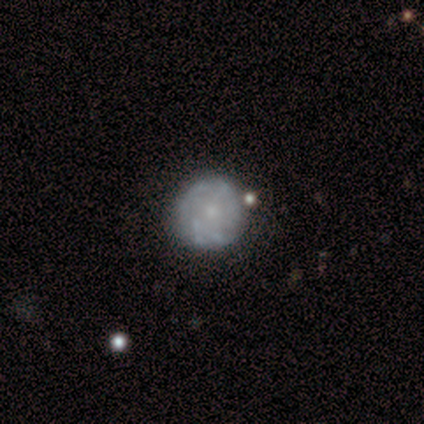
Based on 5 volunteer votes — A featured or disk galaxy (100%) with no bar (100%), tight (67%) spiral arms (60%) and a small central bulge (60%).

Vote fractions:
- Smooth or featured? featured or disk: 100% / smooth: 0% / star or artifact: 0%
- Edge-on disk? no: 100% / yes: 0%
- Bar? no: 100% / strong: 0% / weak: 0%
- Spiral arms? yes: 60% / no: 40%
- Spiral winding? tight: 67% / medium: 33% / loose: 0%
- Spiral arm count? can't tell: 100% / 1: 0% / 2: 0% / 3: 0% / 4: 0% / more than 4: 0%
- Bulge size? small: 60% / moderate: 40% / dominant: 0% / large: 0% / none: 0%
- Merging? minor disturbance: 60% / none: 40% / major disturbance: 0% / merger: 0%